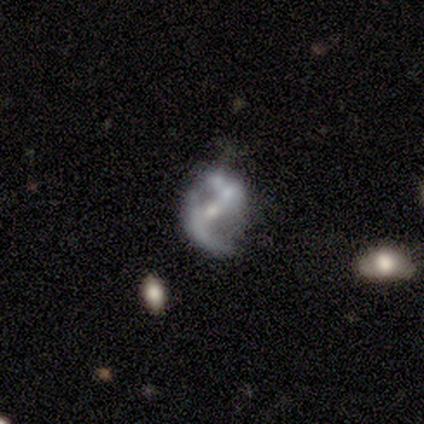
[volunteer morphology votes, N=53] Smooth or featured? featured or disk (85%)
Edge-on disk? no (96%)
Bar? weak (44%)
Spiral arms? yes (77%)
Spiral winding? loose (67%)
Spiral arm count? 2 (88%)
Bulge size? moderate (40%)
Merging? none (52%)